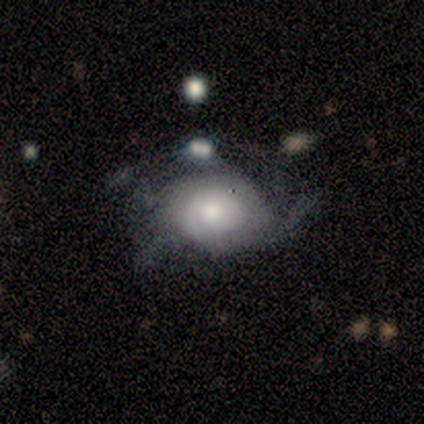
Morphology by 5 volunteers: featured or disk 80%, smooth 20%, star or artifact 0%. Down the decision tree: edge-on disk — no (100%); bar — no (75%); spiral arms — yes (75%); spiral arm count — 2 (100%); spiral winding — tight (67%); bulge size — moderate (75%); merging — minor disturbance (40%, tied with major disturbance).